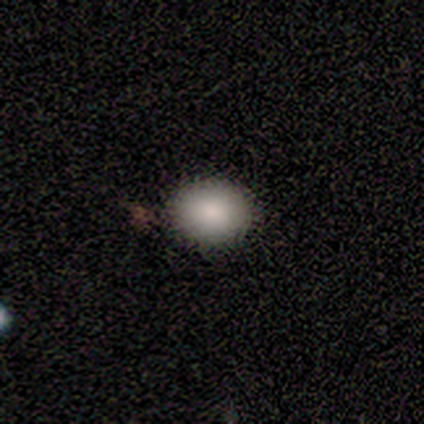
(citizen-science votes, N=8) Morphology: type=smooth (88%); roundness=round (57%); merging=none (86%).